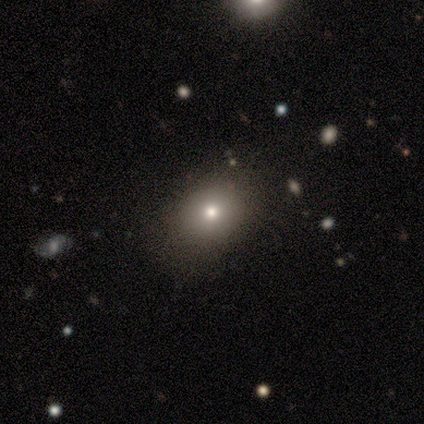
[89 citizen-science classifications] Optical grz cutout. It shows a smooth galaxy with no disk features (65%) that is in between round and cigar-shaped (59%). Merging: none (85%).